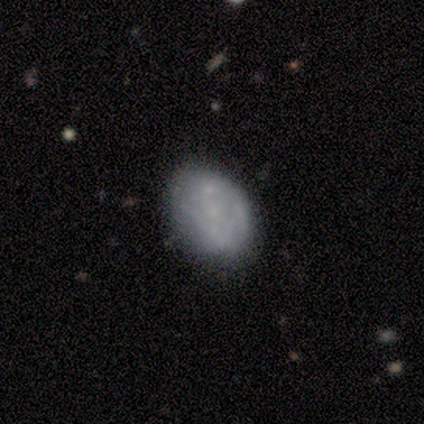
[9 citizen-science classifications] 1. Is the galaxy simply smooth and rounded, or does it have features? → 89% featured or disk, 11% smooth, 0% star or artifact.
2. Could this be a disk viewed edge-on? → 100% no, 0% yes.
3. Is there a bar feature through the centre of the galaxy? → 88% no, 12% weak, 0% strong.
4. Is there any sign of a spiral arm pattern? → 62% no, 38% yes.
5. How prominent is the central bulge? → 50% none, 38% small, 12% moderate, 0% dominant, 0% large.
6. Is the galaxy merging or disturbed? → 78% none, 11% minor disturbance, 11% merger, 0% major disturbance.